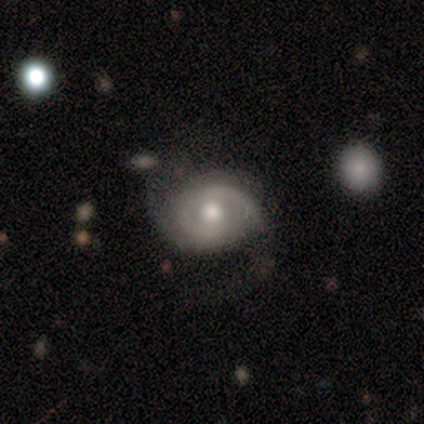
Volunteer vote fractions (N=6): Smooth or featured?
  - featured or disk: 83% *
  - smooth: 17%
  - star or artifact: 0%
Edge-on disk?
  - no: 80% *
  - yes: 20%
Bar?
  - weak: 75% *
  - no: 25%
  - strong: 0%
Spiral arms?
  - yes: 100% *
  - no: 0%
Spiral winding?
  - tight: 75% *
  - medium: 25%
  - loose: 0%
Spiral arm count?
  - 2: 100% *
  - 1: 0%
  - 3: 0%
  - 4: 0%
  - more than 4: 0%
  - can't tell: 0%
Bulge size?
  - moderate: 100% *
  - dominant: 0%
  - large: 0%
  - small: 0%
  - none: 0%
Merging?
  - none: 67% *
  - minor disturbance: 17%
  - major disturbance: 17%
  - merger: 0%